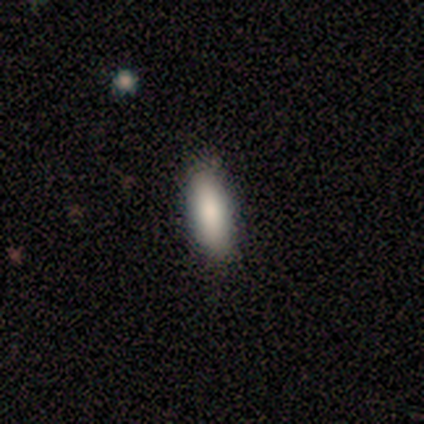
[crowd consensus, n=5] Smooth or featured: smooth — 100%
How rounded: in between — 60% (cigar-shaped — 40%)
Merging: none — 80% (minor disturbance — 20%)